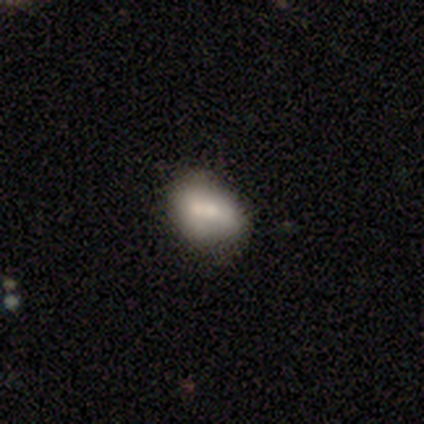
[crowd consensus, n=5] smooth-or-featured: smooth: 60% | featured or disk: 40% | star or artifact: 0%
  how-rounded: in between: 67% | round: 33% | cigar-shaped: 0%
  merging: merger: 60% | none: 20% | minor disturbance: 20% | major disturbance: 0%